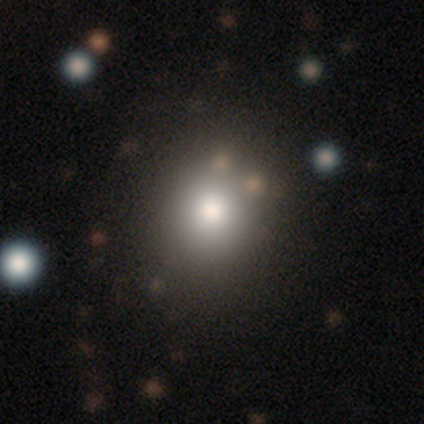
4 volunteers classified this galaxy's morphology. Q: Smooth or featured?
A: smooth (100%)
Q: How rounded?
A: round (75%); runner-up: in between (25%)
Q: Merging?
A: none (100%)